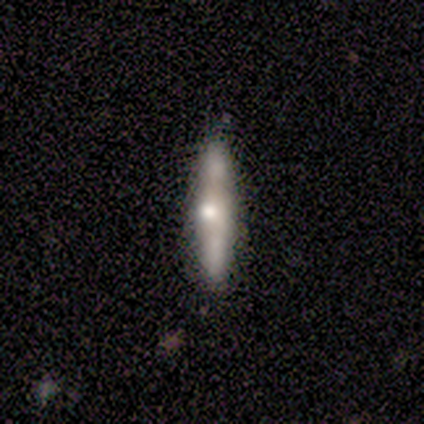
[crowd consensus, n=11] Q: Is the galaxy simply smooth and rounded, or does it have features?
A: featured or disk — 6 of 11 (55%).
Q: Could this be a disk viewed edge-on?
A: yes — 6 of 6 (100%).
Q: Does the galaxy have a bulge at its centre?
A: rounded — 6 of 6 (100%).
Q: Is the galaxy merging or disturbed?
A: none — 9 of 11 (82%).